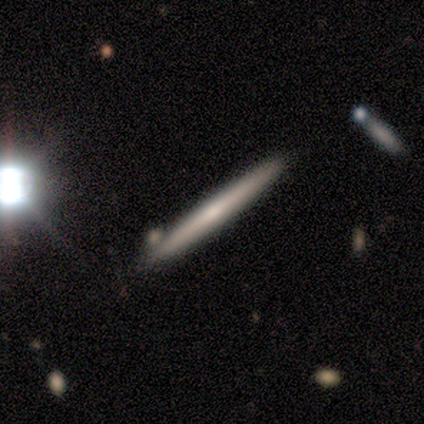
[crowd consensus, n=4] smooth 50% (tied), featured or disk 50% (tied), star or artifact 0%. Down the decision tree: how rounded — cigar-shaped (100%); merging — none (100%).